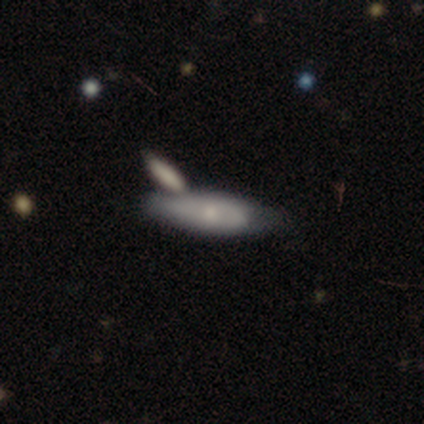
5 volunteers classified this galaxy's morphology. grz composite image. It shows a featured or disk galaxy (100%) viewed edge-on (60%) with a rounded central bulge (67%). Merging: none (40%, tied with merger).